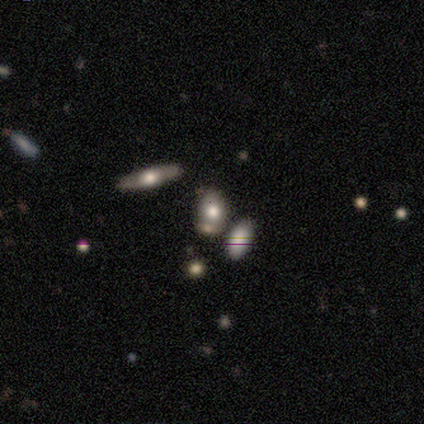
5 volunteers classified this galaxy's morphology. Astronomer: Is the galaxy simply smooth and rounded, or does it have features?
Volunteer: smooth — 40%, tied with star or artifact at 40%.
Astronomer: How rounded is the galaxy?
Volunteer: round — 100%.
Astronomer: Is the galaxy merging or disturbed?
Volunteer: none — 67%.